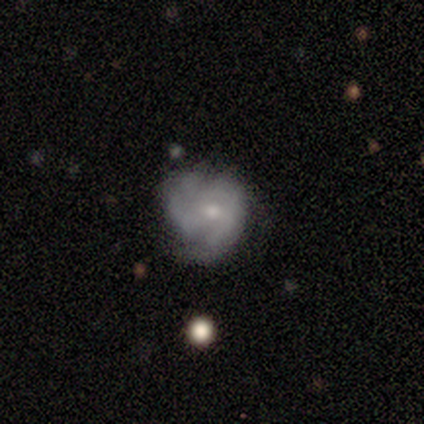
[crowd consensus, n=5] A featured or disk galaxy (60%) with no bar (67%), tight (67%) spiral arms (100%) and a small central bulge (67%). Merging: none (50%).